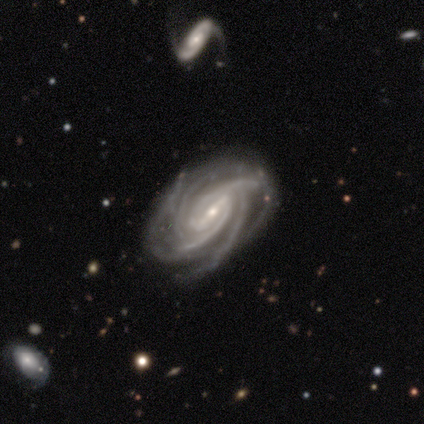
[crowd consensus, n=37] Smooth or featured? 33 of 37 (89%) said featured or disk. Edge-on disk? 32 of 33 (97%) said no. Bar? 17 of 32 (53%) said strong. Spiral arms? 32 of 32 (100%) said yes. Spiral winding? 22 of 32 (69%) said tight. Spiral arm count? 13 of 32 (41%) said 4. Bulge size? 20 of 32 (62%) said small. Merging? 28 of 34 (82%) said none.